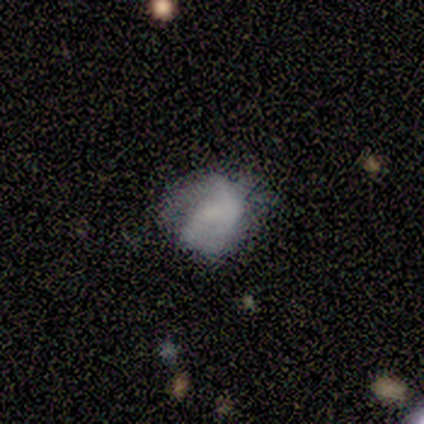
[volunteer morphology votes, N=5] Smooth or featured? smooth (60%)
How rounded? in between (67%)
Merging? none (100%)